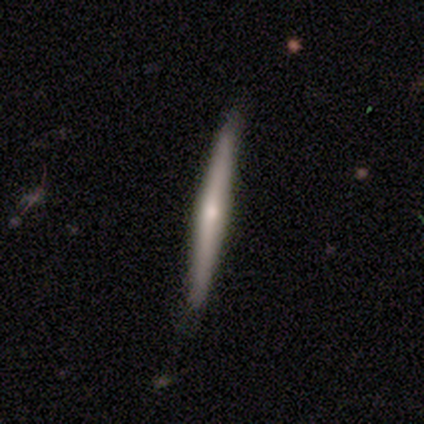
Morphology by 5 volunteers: This appears to be a featured or disk galaxy (60%) viewed edge-on (100%) with a rounded central bulge (67%). Merging: minor disturbance (60%).